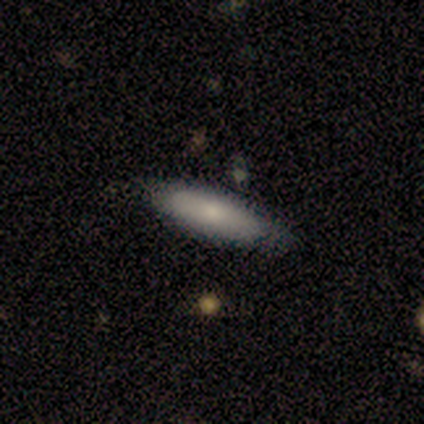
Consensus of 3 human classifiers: smooth-or-featured: smooth: 100% | featured or disk: 0% | star or artifact: 0%
  how-rounded: cigar-shaped: 67% | in between: 33% | round: 0%
  merging: none: 67% | minor disturbance: 33% | major disturbance: 0% | merger: 0%